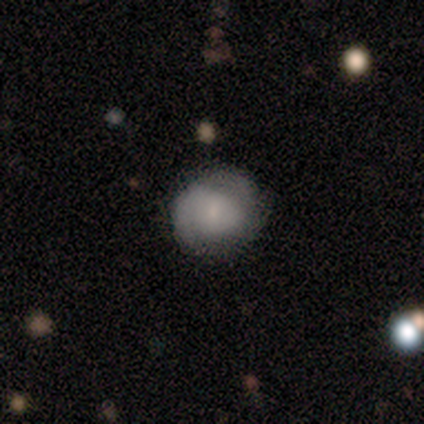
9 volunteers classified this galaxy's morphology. Volunteers were most divided on "merging" (2-way tie): none: 50%, minor disturbance: 50%, major disturbance: 0%, merger: 0%. More confident: how rounded — round (80%); smooth or featured — smooth (56%).